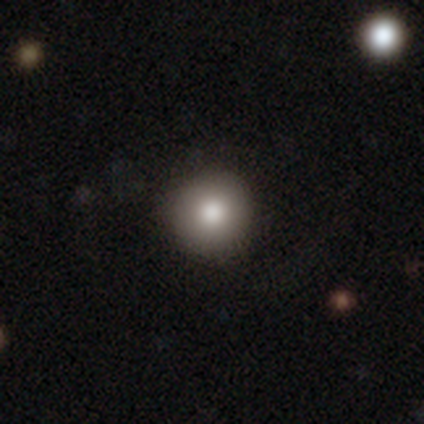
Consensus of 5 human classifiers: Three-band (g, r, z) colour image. It shows a smooth galaxy with no disk features (100%) that is round (100%). Merging: none (80%).